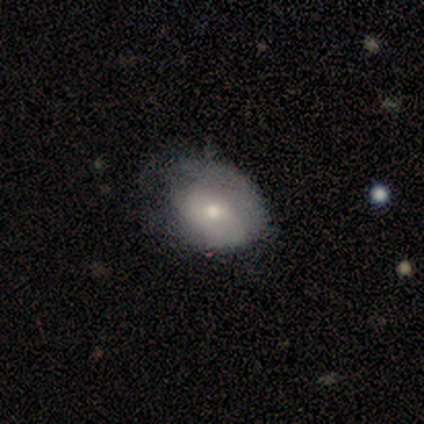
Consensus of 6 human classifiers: This appears to be a smooth galaxy with no disk features (83%) that is in between round and cigar-shaped (80%). Merging: major disturbance (60%).